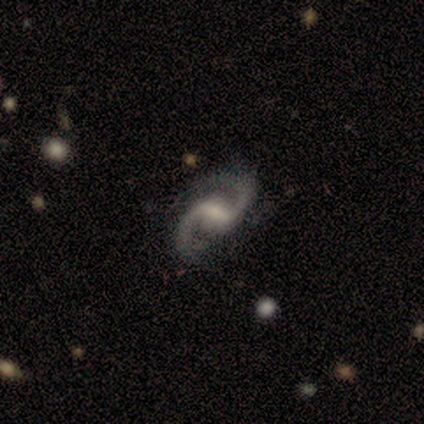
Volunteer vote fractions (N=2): A featured or disk galaxy (100%) with a weak bar (100%), 2 (100%) medium (100%) spiral arms (100%) and a small central bulge (50%, tied with none). Merging: none (50%, tied with minor disturbance).